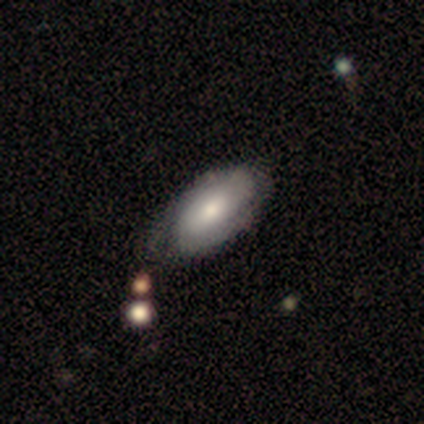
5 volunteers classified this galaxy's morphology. type=featured or disk (80%); edge-on=no (100%); bar=weak (75%); spiral arms=yes (75%); winding=tight (100%); arm count=can't tell (67%); bulge=moderate (75%); merging=none (100%).